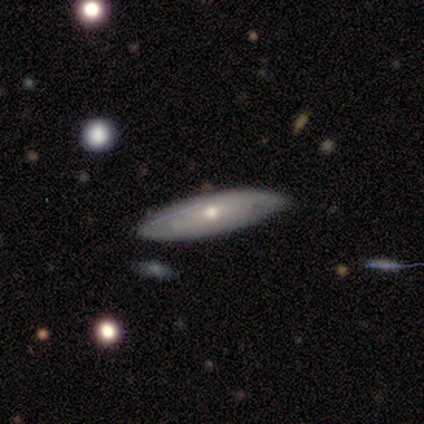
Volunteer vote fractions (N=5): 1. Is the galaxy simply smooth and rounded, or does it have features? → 60% smooth, 40% featured or disk, 0% star or artifact.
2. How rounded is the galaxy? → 67% in between, 33% cigar-shaped, 0% round.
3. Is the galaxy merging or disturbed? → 80% none, 20% minor disturbance, 0% major disturbance, 0% merger.